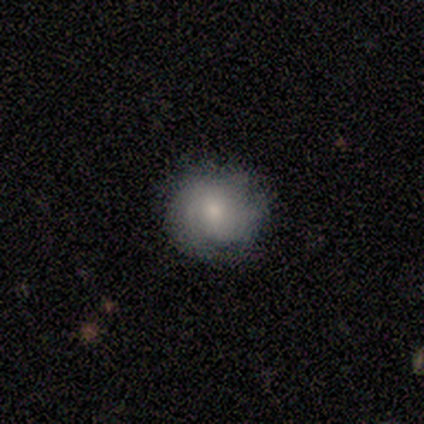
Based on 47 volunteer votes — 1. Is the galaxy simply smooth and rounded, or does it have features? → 51% featured or disk, 45% smooth, 4% star or artifact.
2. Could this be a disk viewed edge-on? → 92% no, 8% yes.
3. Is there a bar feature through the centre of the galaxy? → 68% no, 23% weak, 9% strong.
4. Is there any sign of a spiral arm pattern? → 86% yes, 14% no.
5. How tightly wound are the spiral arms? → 63% tight, 37% medium, 0% loose.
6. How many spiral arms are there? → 68% can't tell, 16% 1, 16% 2, 0% 3, 0% 4, 0% more than 4.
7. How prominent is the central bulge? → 45% moderate (tied), 45% small (tied), 9% none, 0% dominant, 0% large.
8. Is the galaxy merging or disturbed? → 69% none, 24% minor disturbance, 7% major disturbance, 0% merger.